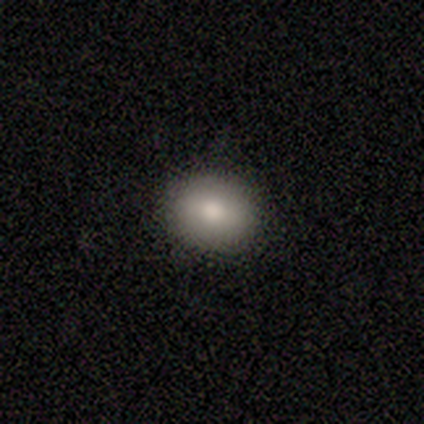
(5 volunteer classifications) Smooth or featured? 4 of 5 (80%) said smooth. How rounded? 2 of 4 (50%, tied with in between) said round. Merging? 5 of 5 (100%) said none.